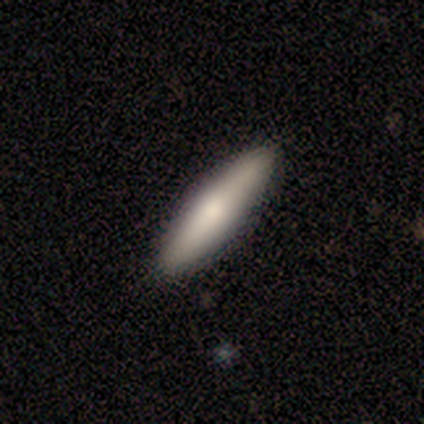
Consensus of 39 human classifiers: Smooth or featured? 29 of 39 (74%) said smooth. How rounded? 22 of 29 (76%) said cigar-shaped. Merging? 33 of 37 (89%) said none.